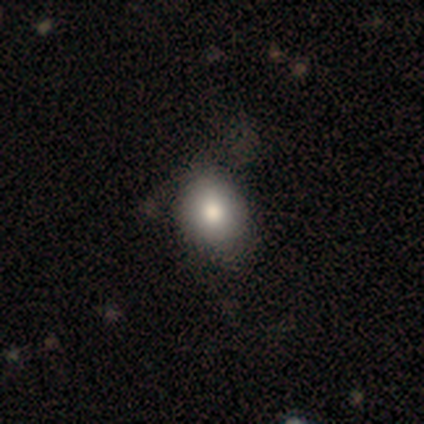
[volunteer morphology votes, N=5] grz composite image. It shows a smooth galaxy with no disk features (60%) that is round (100%). Merging: none (60%).